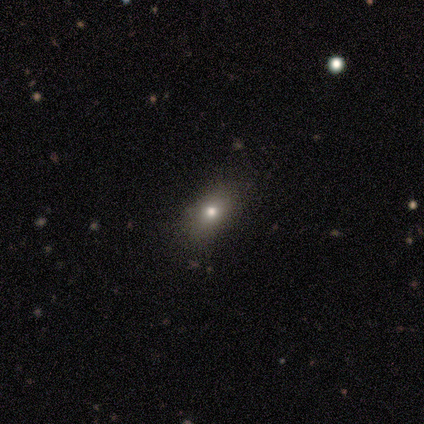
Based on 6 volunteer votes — Morphology: type=smooth (83%); roundness=in between (80%); merging=none (100%).